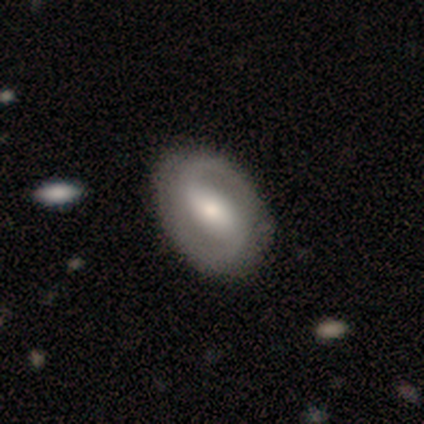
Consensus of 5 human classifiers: A featured or disk galaxy (60%) with a strong bar (67%), 2 (100%) tight (33%, tied with medium and loose) spiral arms (100%) and a moderate central bulge (100%). Merging: none (60%).